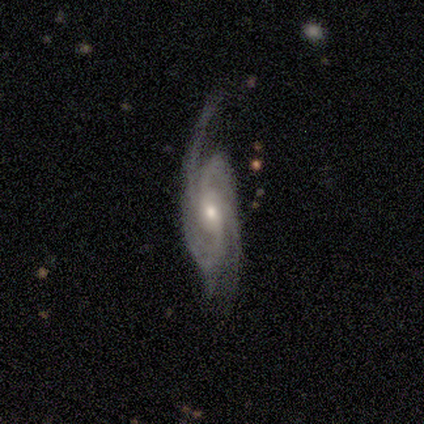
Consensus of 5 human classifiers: Q: Smooth or featured?
A: featured or disk (80%); runner-up: star or artifact (20%)
Q: Edge-on disk?
A: no (100%)
Q: Bar?
A: weak (50%); tied with: no (50%)
Q: Spiral arms?
A: yes (100%)
Q: Spiral winding?
A: tight (75%); runner-up: medium (25%)
Q: Spiral arm count?
A: 2 (25%); tied with: 3 (25%); 4 (25%); more than 4 (25%)
Q: Bulge size?
A: moderate (50%); tied with: small (50%)
Q: Merging?
A: none (75%); runner-up: major disturbance (25%)